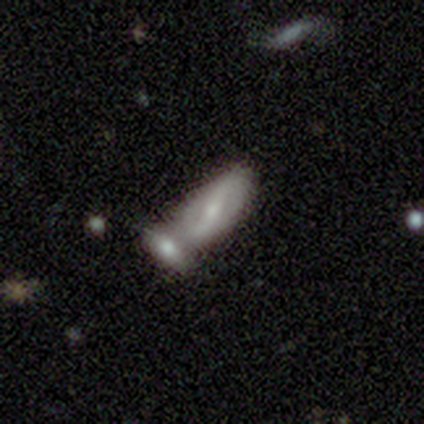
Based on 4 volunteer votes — This is possibly a smooth galaxy (50%, tied with featured or disk). How rounded: possibly in between (50%, tied with cigar-shaped). Merging: clearly merger (100%).